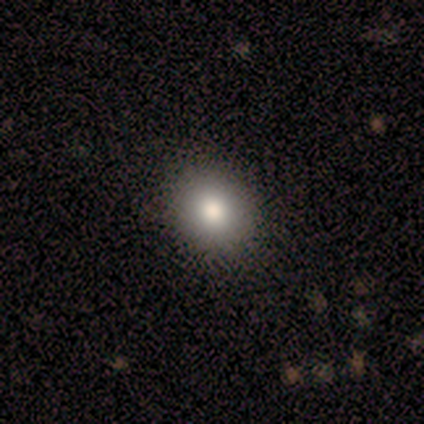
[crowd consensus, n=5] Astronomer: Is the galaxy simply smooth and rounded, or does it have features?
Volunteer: smooth — 80%.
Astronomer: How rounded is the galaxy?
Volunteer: round — 75%.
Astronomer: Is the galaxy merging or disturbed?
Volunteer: none — 80%.